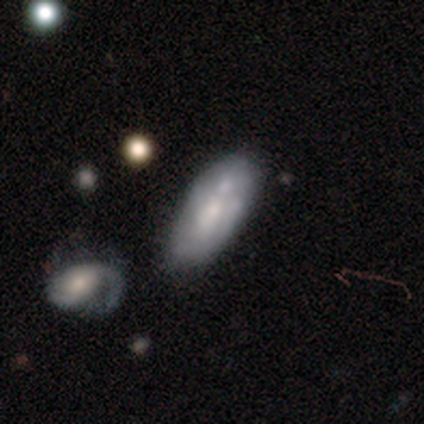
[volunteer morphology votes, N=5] Q: Smooth or featured?
A: smooth (80%); runner-up: featured or disk (20%)
Q: How rounded?
A: in between (100%)
Q: Merging?
A: none (40%); runner-up: minor disturbance (20%)